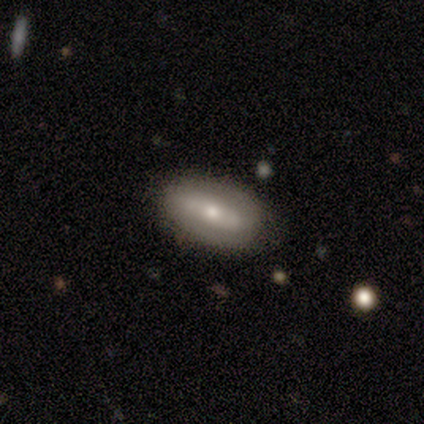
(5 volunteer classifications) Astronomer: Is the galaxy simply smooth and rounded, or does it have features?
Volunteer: smooth — 60% (runner-up: featured or disk, 40%).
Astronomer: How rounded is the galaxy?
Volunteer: in between — 100%.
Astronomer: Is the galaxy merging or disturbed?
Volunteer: none — 80%.